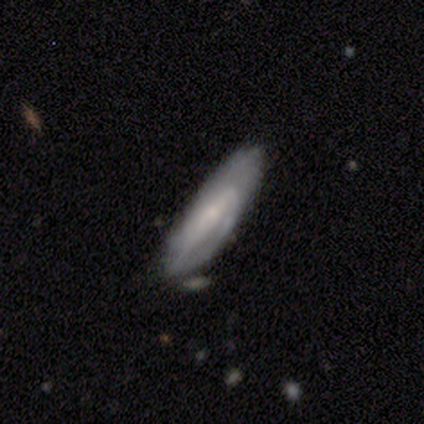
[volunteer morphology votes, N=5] Smooth or featured? 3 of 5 (60%) said featured or disk. Edge-on disk? 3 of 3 (100%) said no. Bar? 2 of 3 (67%) said weak. Spiral arms? 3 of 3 (100%) said yes. Spiral winding? 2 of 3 (67%) said loose. Spiral arm count? 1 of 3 (33%, tied with 2 and can't tell) said 1. Bulge size? 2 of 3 (67%) said small. Merging? 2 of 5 (40%, tied with minor disturbance) said none.